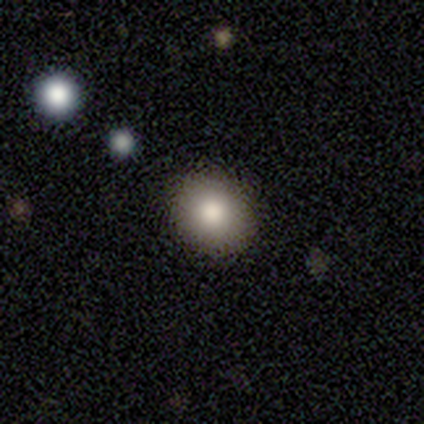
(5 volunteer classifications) A smooth galaxy with no disk features (60%) that is round (100%). Merging: none (100%).